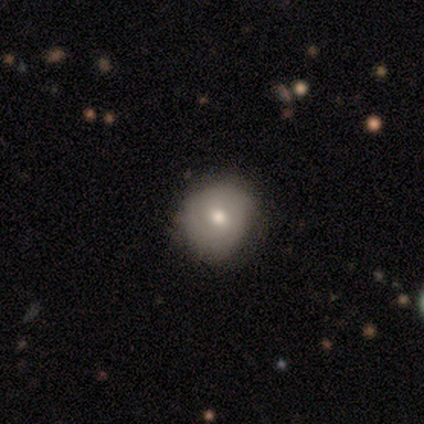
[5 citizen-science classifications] smooth 60%, featured or disk 40%, star or artifact 0%. Down the decision tree: how rounded — round (100%); merging — none (60%).